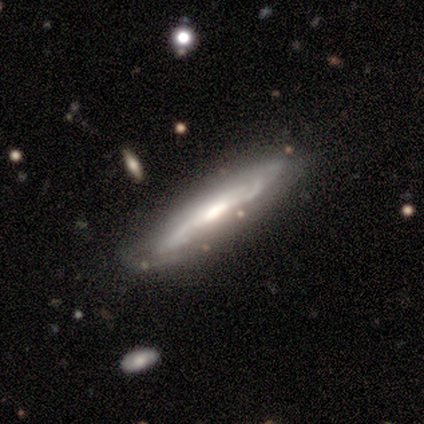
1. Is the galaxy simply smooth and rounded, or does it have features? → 100% featured or disk, 0% smooth, 0% star or artifact.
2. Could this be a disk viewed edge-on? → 60% no, 40% yes.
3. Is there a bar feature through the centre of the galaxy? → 67% no, 33% weak, 0% strong.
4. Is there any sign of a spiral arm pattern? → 67% yes, 33% no.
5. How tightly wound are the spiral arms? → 100% medium, 0% tight, 0% loose.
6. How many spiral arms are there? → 100% can't tell, 0% 1, 0% 2, 0% 3, 0% 4, 0% more than 4.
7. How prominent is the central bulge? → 33% large (tied), 33% moderate (tied), 33% small (tied), 0% dominant, 0% none.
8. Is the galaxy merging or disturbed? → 80% none, 20% minor disturbance, 0% major disturbance, 0% merger.